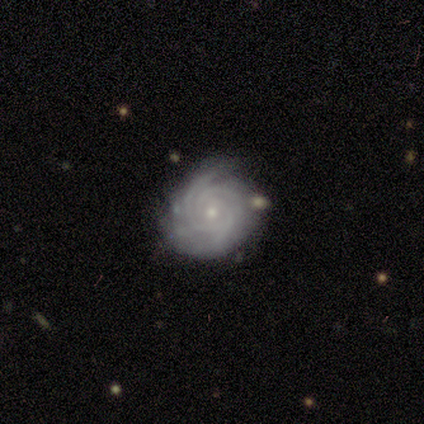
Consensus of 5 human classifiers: Smooth or featured?
  - featured or disk: 80% *
  - smooth: 20%
  - star or artifact: 0%
Edge-on disk?
  - no: 100% *
  - yes: 0%
Bar?
  - no: 100% *
  - strong: 0%
  - weak: 0%
Spiral arms?
  - yes: 100% *
  - no: 0%
Spiral winding?
  - tight: 100% *
  - medium: 0%
  - loose: 0%
Spiral arm count?
  - 3: 50% *
  - 2: 25%
  - can't tell: 25%
  - 1: 0%
  - 4: 0%
  - more than 4: 0%
Bulge size?
  - small: 75% *
  - moderate: 25%
  - dominant: 0%
  - large: 0%
  - none: 0%
Merging?
  - none: 80% *
  - merger: 20%
  - minor disturbance: 0%
  - major disturbance: 0%